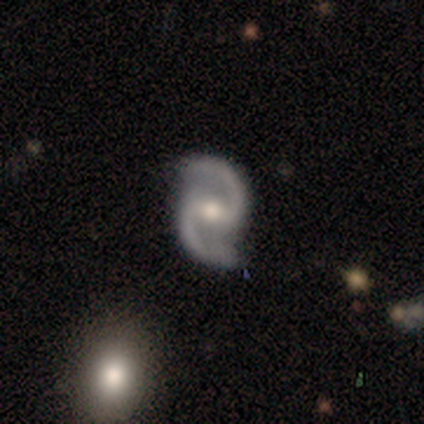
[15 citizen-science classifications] Smooth or featured? 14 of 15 (93%) said featured or disk. Edge-on disk? 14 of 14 (100%) said no. Bar? 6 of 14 (43%) said weak. Spiral arms? 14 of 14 (100%) said yes. Spiral winding? 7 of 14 (50%, tied with loose) said medium. Spiral arm count? 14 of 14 (100%) said 2. Bulge size? 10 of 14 (71%) said moderate. Merging? 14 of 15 (93%) said none.